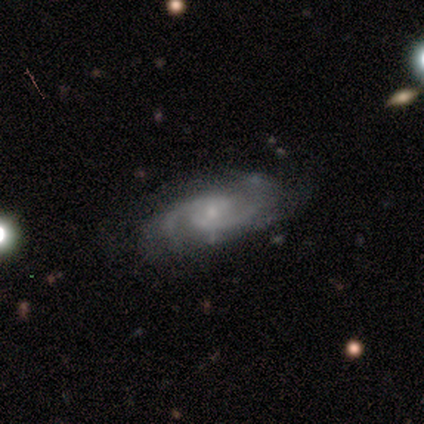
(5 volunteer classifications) Overall: featured or disk (100%). Edge-on disk: no (100%). Bar: weak (80%). Spiral arms: yes (100%). Spiral arm count: 2 (60%; 4 20%). Spiral winding: medium (60%; tight 20%). Bulge size: small (60%; moderate 20%). Merging: none (80%).